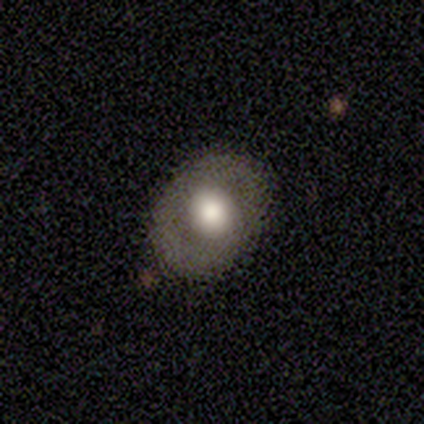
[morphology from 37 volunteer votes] Overall: smooth (51%; featured or disk 41%). How rounded: round (58%; in between 42%). Merging: none (74%).